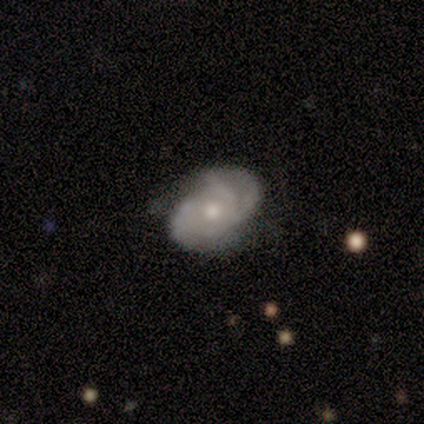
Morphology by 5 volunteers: A featured or disk galaxy (80%) with no bar (75%), 3 (75%) medium (75%) spiral arms (100%) and a small central bulge (75%). Merging: none (80%).